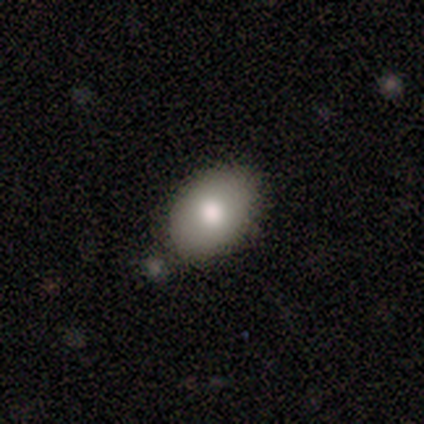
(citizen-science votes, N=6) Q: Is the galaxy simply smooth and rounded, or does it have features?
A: smooth — 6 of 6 (100%).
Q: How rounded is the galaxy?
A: in between — 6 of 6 (100%).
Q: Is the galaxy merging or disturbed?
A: none — 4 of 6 (67%).